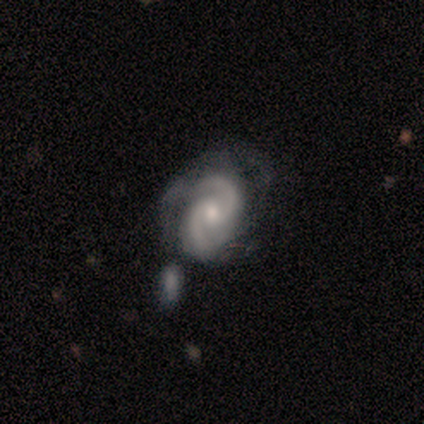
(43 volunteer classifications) smooth_or_featured: featured or disk (p=0.93) [alt: smooth p=0.05]
disk_edge_on: no (p=1.00)
bar: no (p=0.53) [alt: weak p=0.40]
has_spiral_arms: yes (p=1.00)
spiral_winding: tight (p=0.50) [alt: medium p=0.40]
spiral_arm_count: 2 (p=0.93) [alt: 1 p=0.05]
bulge_size: moderate (p=0.65) [alt: small p=0.30]
merging: none (p=0.40) [alt: major disturbance p=0.26]